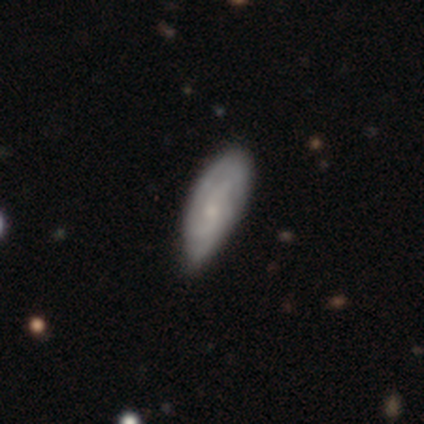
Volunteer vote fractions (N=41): A featured or disk galaxy (56%) with no bar (84%), tight (53%) spiral arms (79%) and a moderate central bulge (42%, tied with small). Merging: none (54%).